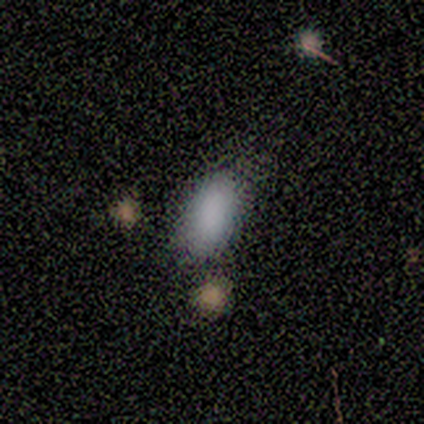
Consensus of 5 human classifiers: This appears to be a smooth galaxy with no disk features (60%) that is in between round and cigar-shaped (100%). Merging: none (50%).